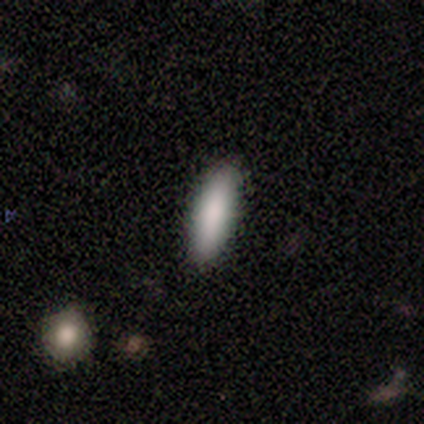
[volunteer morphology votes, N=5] smooth_or_featured: smooth (p=1.00)
how_rounded: cigar-shaped (p=0.60) [alt: in between p=0.40]
merging: none (p=0.80) [alt: minor disturbance p=0.20]